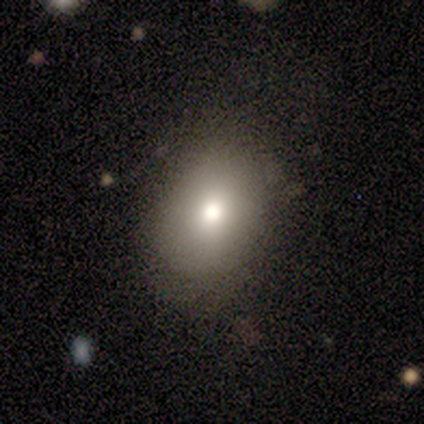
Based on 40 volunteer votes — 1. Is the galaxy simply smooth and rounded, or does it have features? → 90% smooth, 5% featured or disk, 5% star or artifact.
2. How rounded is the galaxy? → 67% in between, 33% round, 0% cigar-shaped.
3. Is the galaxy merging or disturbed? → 82% none, 11% minor disturbance, 5% major disturbance, 3% merger.